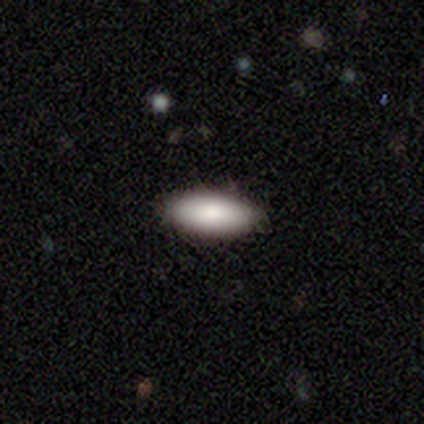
Volunteers were most divided on "how rounded": in between: 60%, cigar-shaped: 40%, round: 0%. More confident: smooth or featured — smooth (100%); merging — none (80%).